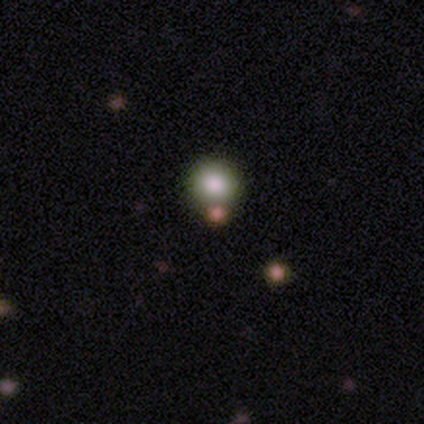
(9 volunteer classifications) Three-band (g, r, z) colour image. It shows a smooth galaxy with no disk features (89%) that is round (88%). Merging: none (88%).